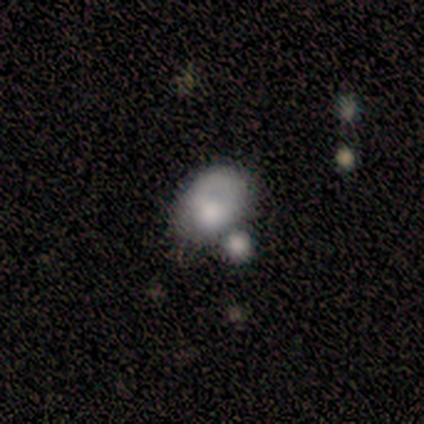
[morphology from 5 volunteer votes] Q: Smooth or featured?
A: smooth (80%); runner-up: star or artifact (20%)
Q: How rounded?
A: in between (75%); runner-up: round (25%)
Q: Merging?
A: merger (75%); runner-up: minor disturbance (25%)